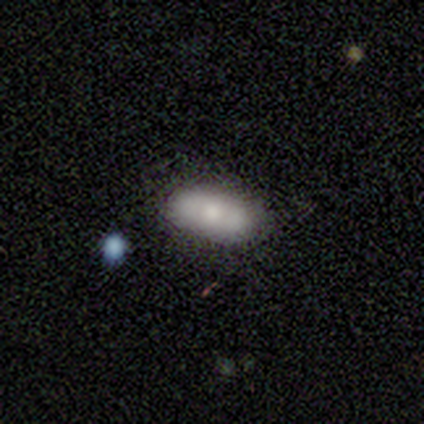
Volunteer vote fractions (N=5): Q: Smooth or featured?
A: smooth (60%); runner-up: featured or disk (40%)
Q: How rounded?
A: in between (67%); runner-up: round (33%)
Q: Merging?
A: none (100%)